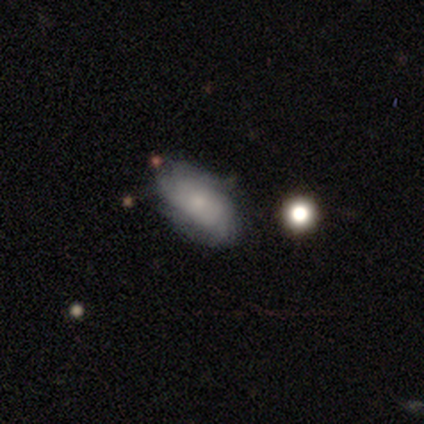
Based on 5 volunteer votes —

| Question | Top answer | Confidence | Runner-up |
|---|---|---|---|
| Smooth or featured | smooth | 60% | featured or disk (40%) |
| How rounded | in between | 100% | — |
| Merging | none | 80% | minor disturbance (20%) |